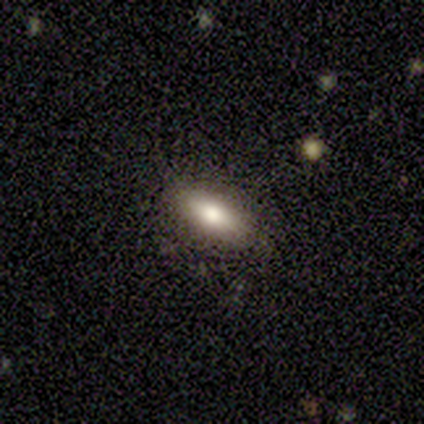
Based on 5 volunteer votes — Smooth or featured? 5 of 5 (100%) said smooth. How rounded? 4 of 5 (80%) said in between. Merging? 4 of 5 (80%) said none.